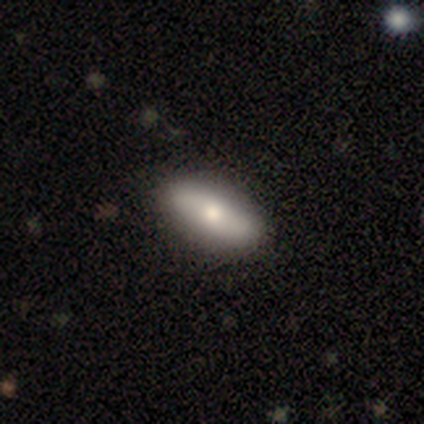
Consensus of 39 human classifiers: This is likely a smooth galaxy (64%). How rounded: likely in between (76%). Merging: likely none (68%).